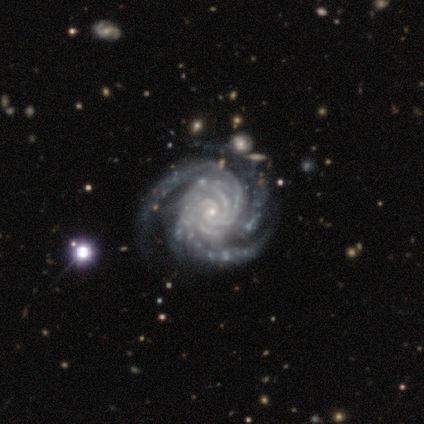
This appears to be a featured or disk galaxy (100%) with no bar (100%), 3 (100%) tight (100%) spiral arms (100%) and a small central bulge (100%). Merging: none (100%).